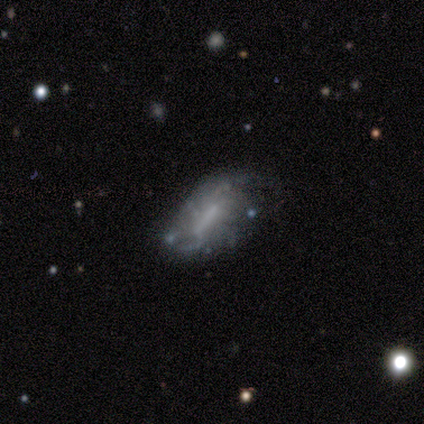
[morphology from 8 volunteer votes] This is likely a featured or disk galaxy (62%). It is clearly not viewed edge-on (100%). Bar: likely no (60%). Spiral arm pattern: clearly no (80%). Central bulge: clearly none (100%). Merging: clearly none (86%).